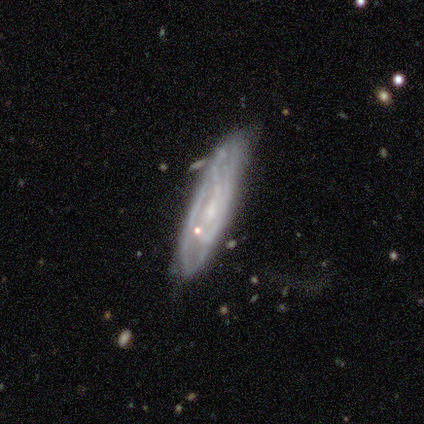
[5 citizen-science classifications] Smooth or featured?
  - featured or disk: 60% *
  - smooth: 40%
  - star or artifact: 0%
Edge-on disk?
  - no: 67% *
  - yes: 33%
Bar?
  - no: 100% *
  - strong: 0%
  - weak: 0%
Spiral arms?
  - no: 100% *
  - yes: 0%
Bulge size?
  - none: 100% *
  - dominant: 0%
  - large: 0%
  - moderate: 0%
  - small: 0%
Merging?
  - none: 60% *
  - minor disturbance: 20%
  - major disturbance: 20%
  - merger: 0%